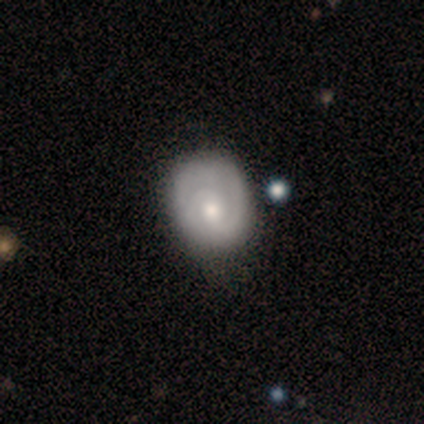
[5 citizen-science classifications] smooth_or_featured: smooth (p=0.40) [tied with: featured or disk p=0.40]
how_rounded: round (p=0.50) [tied with: in between p=0.50]
merging: none (p=0.75) [alt: major disturbance p=0.25]